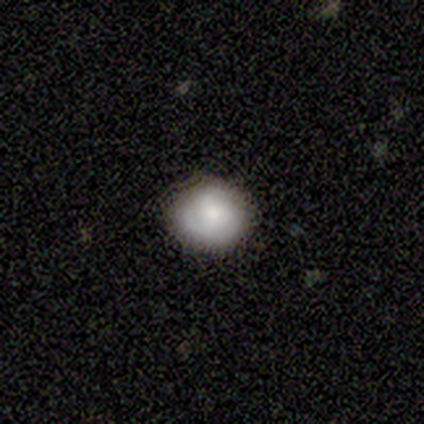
This appears to be a smooth galaxy with no disk features (80%) that is round (84%). Merging: none (82%).